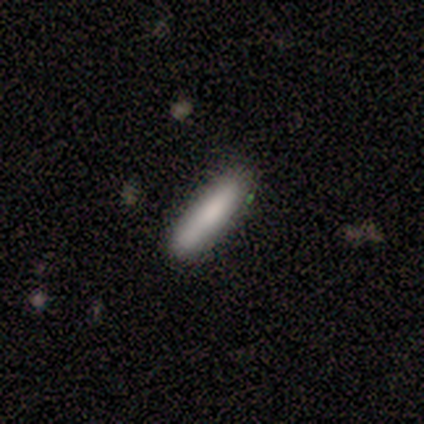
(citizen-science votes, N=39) A smooth galaxy with no disk features (69%) that is cigar-shaped (96%).

Vote fractions:
- Smooth or featured? smooth: 69% / featured or disk: 23% / star or artifact: 8%
- How rounded? cigar-shaped: 96% / in between: 4% / round: 0%
- Merging? none: 78% / minor disturbance: 14% / major disturbance: 6% / merger: 3%